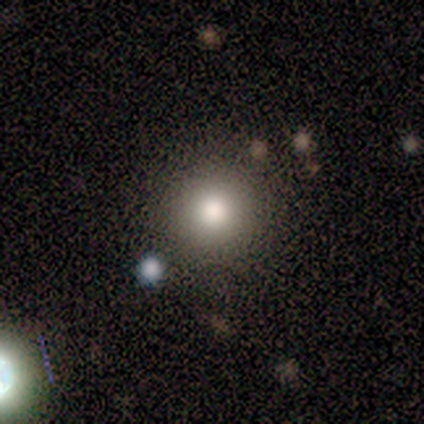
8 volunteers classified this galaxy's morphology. Smooth or featured? smooth (88%)
How rounded? round (86%)
Merging? none (100%)